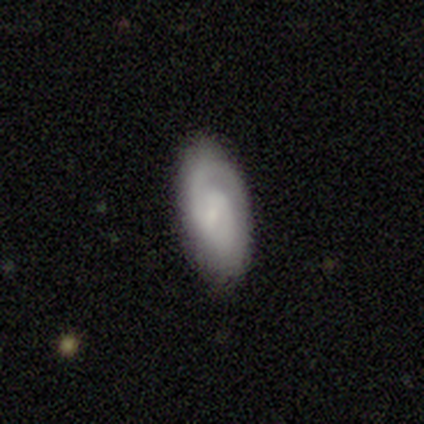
A featured or disk galaxy (56%) with a weak bar (60%), 2 (60%) tight (40%, tied with medium) spiral arms (100%) and a small central bulge (80%). Merging: none (78%).